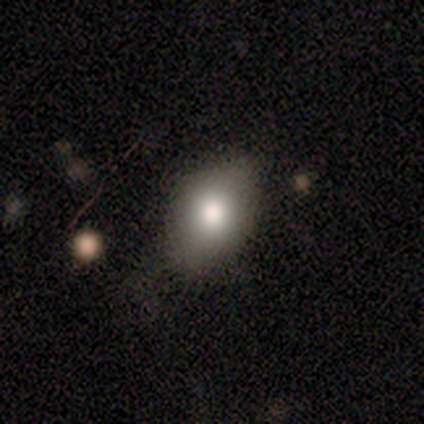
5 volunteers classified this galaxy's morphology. This is clearly a smooth galaxy (100%). How rounded: clearly in between (80%). Merging: likely none (60%).